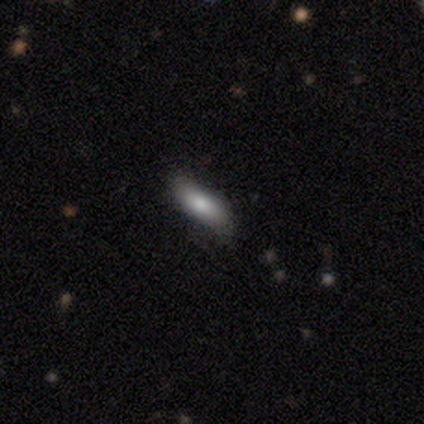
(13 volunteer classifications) This appears to be a smooth galaxy with no disk features (69%) that is in between round and cigar-shaped (78%). Merging: none (64%).